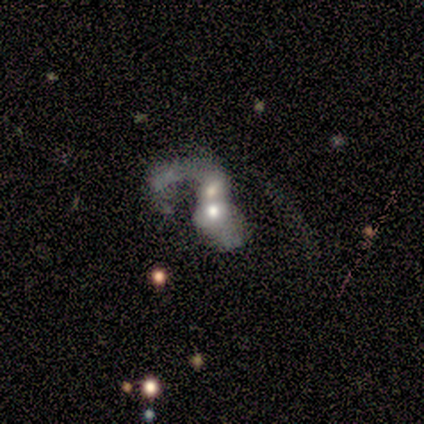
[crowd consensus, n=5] Smooth or featured? featured or disk (60%)
Edge-on disk? no (100%)
Bar? no (100%)
Spiral arms? no (100%)
Bulge size? moderate (67%)
Merging? merger (100%)